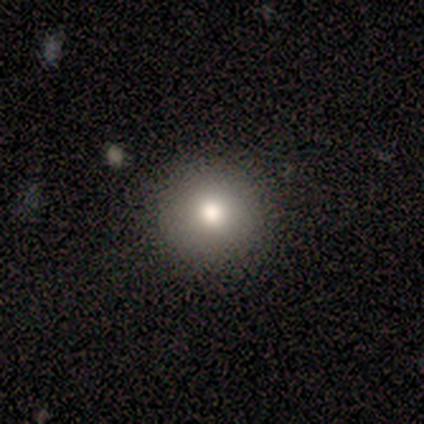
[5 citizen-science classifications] Overall: smooth (60%; featured or disk 20%). How rounded: round (100%). Merging: none (100%).